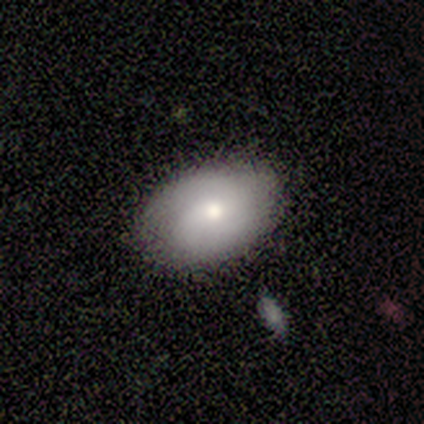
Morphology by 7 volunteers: Smooth or featured? 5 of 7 (71%) said featured or disk. Edge-on disk? 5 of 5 (100%) said no. Bar? 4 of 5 (80%) said no. Spiral arms? 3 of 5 (60%) said yes. Spiral winding? 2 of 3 (67%) said tight. Spiral arm count? 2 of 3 (67%) said 2. Bulge size? 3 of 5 (60%) said moderate. Merging? 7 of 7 (100%) said none.